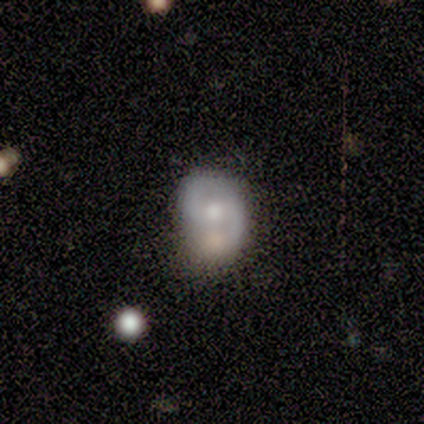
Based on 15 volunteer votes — featured or disk 80%, smooth 20%, star or artifact 0%. Down the decision tree: edge-on disk — no (92%); bar — no (73%); spiral arms — yes (100%); spiral arm count — 2 (82%); spiral winding — tight (36%, tied with loose); bulge size — moderate (73%); merging — none (53%).